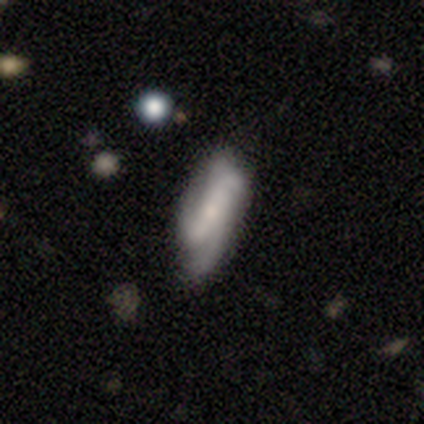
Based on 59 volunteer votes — This is likely a featured or disk galaxy (69%). It is clearly not viewed edge-on (93%). Bar: possibly no (53%). Spiral arm pattern: clearly yes (92%). Spiral arm count: marginally 4 (31%, tied with can't tell). Spiral winding: possibly medium (49%). Central bulge: marginally small (45%). Merging: possibly none (57%).